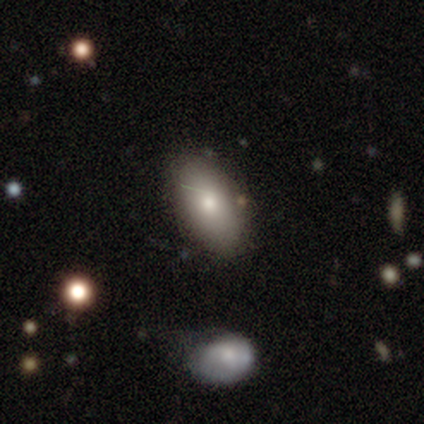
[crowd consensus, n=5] This is clearly a smooth galaxy (100%). How rounded: clearly in between (100%). Merging: clearly none (100%).